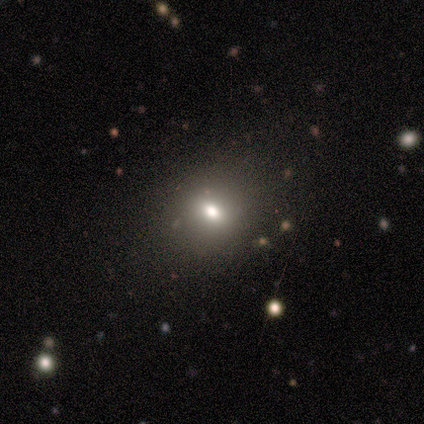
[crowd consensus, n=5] A smooth galaxy with no disk features (60%) that is round (67%).

Vote fractions:
- Smooth or featured? smooth: 60% / star or artifact: 40% / featured or disk: 0%
- How rounded? round: 67% / in between: 33% / cigar-shaped: 0%
- Merging? none: 100% / minor disturbance: 0% / major disturbance: 0% / merger: 0%